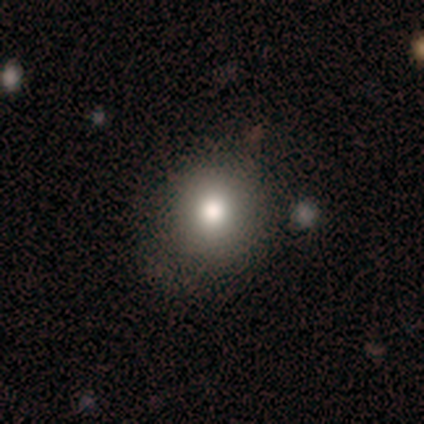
smooth_or_featured: smooth (p=0.59) [alt: star or artifact p=0.26]
how_rounded: round (p=0.91) [alt: in between p=0.09]
merging: none (p=0.76) [alt: minor disturbance p=0.14]